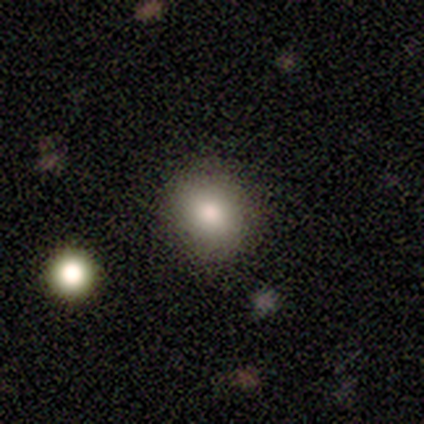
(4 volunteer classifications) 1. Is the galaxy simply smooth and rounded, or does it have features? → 75% smooth, 25% star or artifact, 0% featured or disk.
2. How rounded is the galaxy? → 67% in between, 33% round, 0% cigar-shaped.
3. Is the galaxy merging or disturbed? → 67% none, 33% minor disturbance, 0% major disturbance, 0% merger.